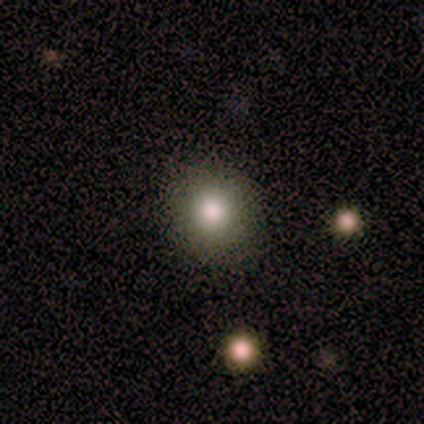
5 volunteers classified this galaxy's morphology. Q: Smooth or featured?
A: smooth (80%); runner-up: star or artifact (20%)
Q: How rounded?
A: round (100%)
Q: Merging?
A: none (75%); runner-up: minor disturbance (25%)